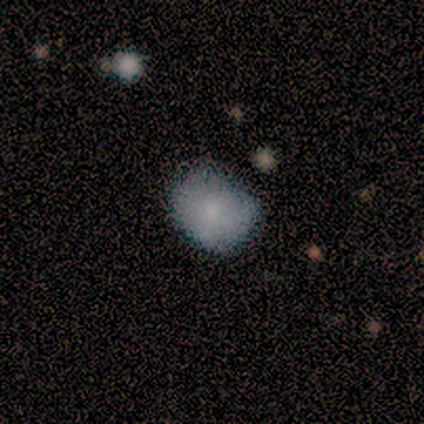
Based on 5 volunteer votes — Smooth or featured: smooth — 80% (featured or disk — 20%)
How rounded: round — 75% (in between — 25%)
Merging: none — 40% (tied with minor disturbance — 40%)